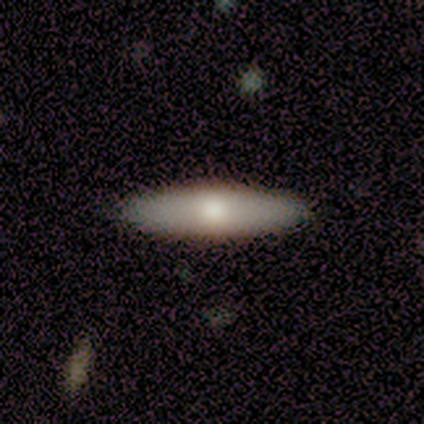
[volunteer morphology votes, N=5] Overall: smooth (80%). How rounded: in between (50%; round 25%). Merging: none (100%).